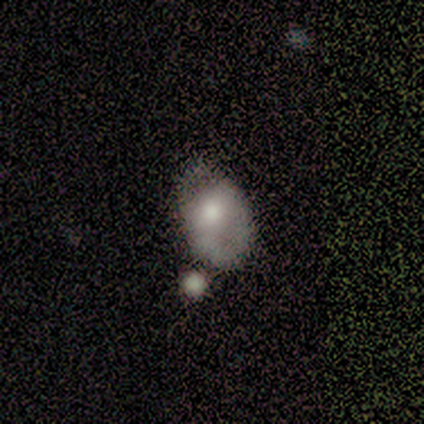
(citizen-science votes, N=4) smooth_or_featured: star or artifact (p=0.50) [alt: smooth p=0.25]